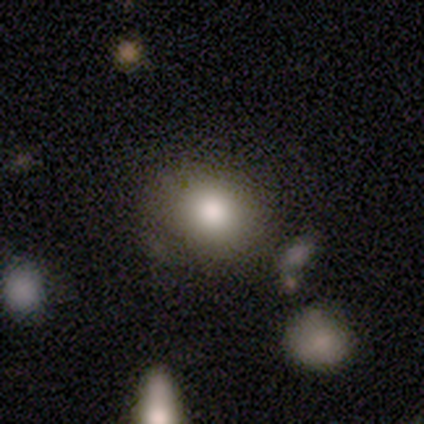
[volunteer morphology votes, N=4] Smooth or featured?
  - smooth: 50% *
  - featured or disk: 25%
  - star or artifact: 25%
How rounded?
  - round: 100% *
  - in between: 0%
  - cigar-shaped: 0%
Merging?
  - none: 100% *
  - minor disturbance: 0%
  - major disturbance: 0%
  - merger: 0%